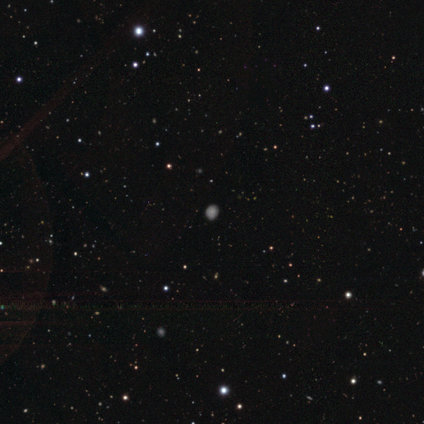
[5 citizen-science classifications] smooth 80%, featured or disk 20%, star or artifact 0%. Down the decision tree: how rounded — round (100%); merging — none (80%).